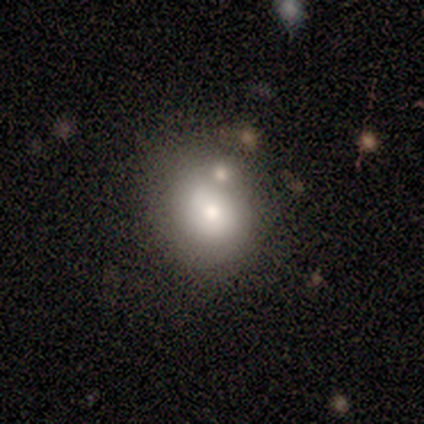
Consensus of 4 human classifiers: Morphology: type=smooth (100%); roundness=round (50%, tied with in between); merging=none (75%).